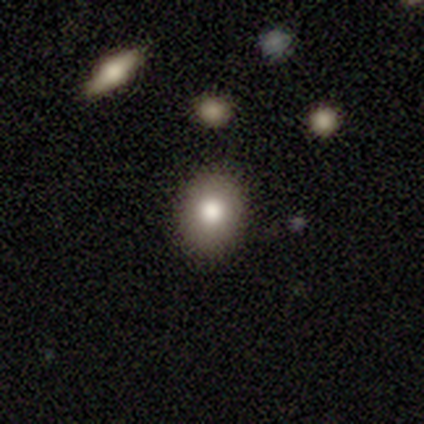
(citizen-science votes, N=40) Overall: smooth (75%). How rounded: round (53%; in between 47%). Merging: none (86%).